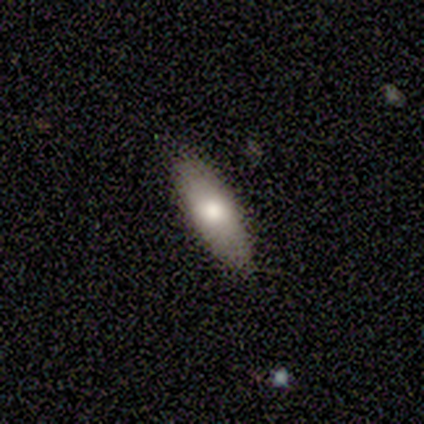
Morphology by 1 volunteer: type=smooth (100%); roundness=in between (100%); merging=none (100%).